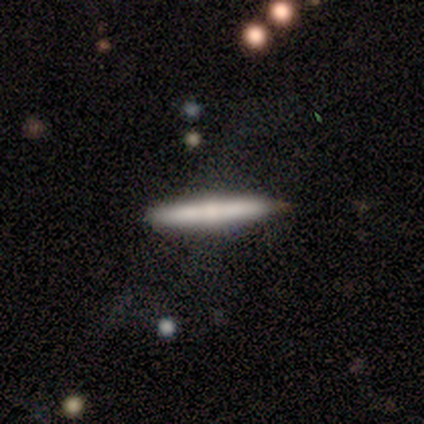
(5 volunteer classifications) smooth_or_featured: smooth (p=0.60) [alt: featured or disk p=0.40]
how_rounded: cigar-shaped (p=1.00)
merging: none (p=0.80) [alt: minor disturbance p=0.20]